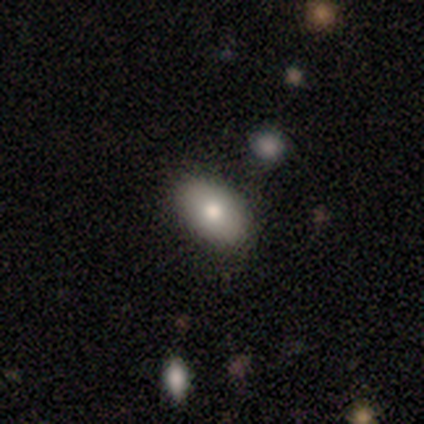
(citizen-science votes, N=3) This appears to be a smooth galaxy with no disk features (33%, tied with featured or disk and star or artifact) that is in between round and cigar-shaped (100%). Merging: none (100%).